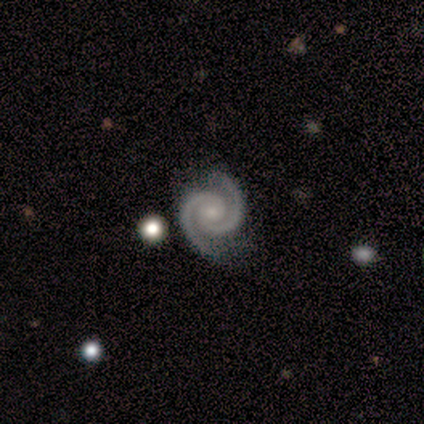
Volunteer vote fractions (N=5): smooth_or_featured: featured or disk (p=1.00)
disk_edge_on: no (p=0.80) [alt: yes p=0.20]
bar: no (p=1.00)
has_spiral_arms: yes (p=1.00)
spiral_winding: tight (p=1.00)
spiral_arm_count: 2 (p=1.00)
bulge_size: moderate (p=0.50) [alt: small p=0.25]
merging: none (p=0.80) [alt: minor disturbance p=0.20]